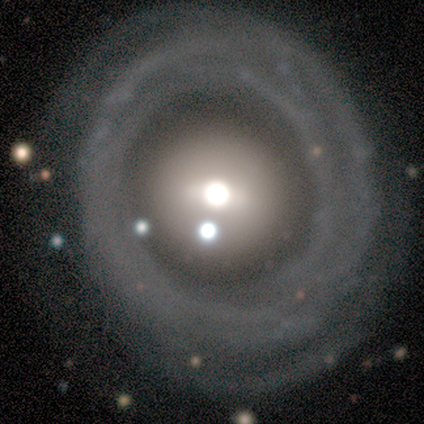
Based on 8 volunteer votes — featured or disk 88%, smooth 12%, star or artifact 0%. Down the decision tree: edge-on disk — no (100%); bar — no (71%); spiral arms — yes (57%); spiral arm count — can't tell (75%); spiral winding — medium (50%); bulge size — moderate (86%); merging — none (88%).